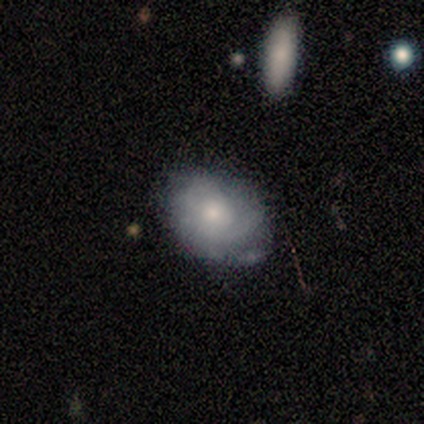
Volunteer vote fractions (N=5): Smooth or featured: featured or disk — 60% (smooth — 40%)
Edge-on disk: no — 67% (yes — 33%)
Bar: no — 100%
Spiral arms: yes — 100%
Spiral winding: tight — 50% (tied with medium — 50%)
Spiral arm count: can't tell — 100%
Bulge size: moderate — 100%
Merging: none — 80% (minor disturbance — 20%)